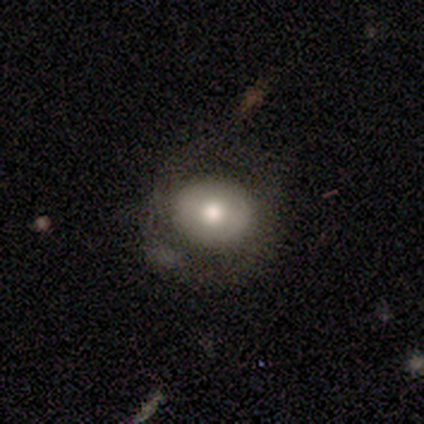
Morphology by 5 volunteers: This is clearly a smooth galaxy (80%). How rounded: likely round (75%). Merging: likely major disturbance (60%).